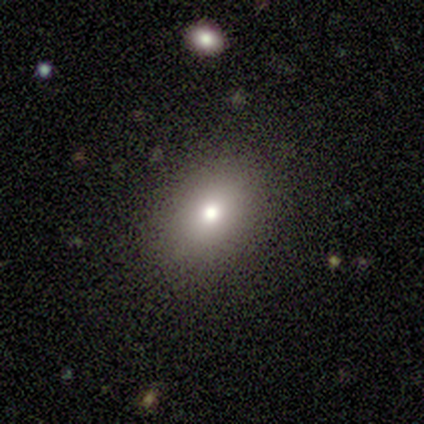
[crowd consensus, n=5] smooth 80%, star or artifact 20%, featured or disk 0%. Down the decision tree: how rounded — round (75%); merging — none (75%).